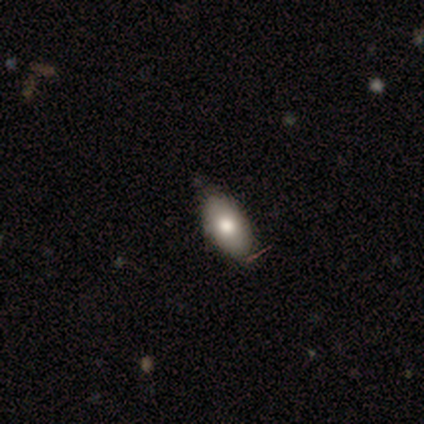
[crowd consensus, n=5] Volunteers were most divided on "smooth or featured": smooth: 80%, featured or disk: 20%, star or artifact: 0%. More confident: how rounded — in between (100%); merging — none (80%).